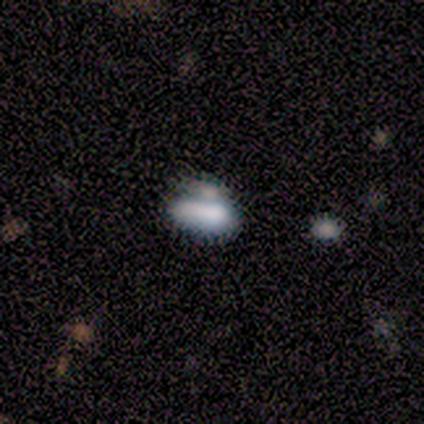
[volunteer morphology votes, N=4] Smooth or featured?
  - smooth: 50% * (tied)
  - star or artifact: 50% * (tied)
  - featured or disk: 0%
How rounded?
  - in between: 100% *
  - round: 0%
  - cigar-shaped: 0%
Merging?
  - minor disturbance: 50% * (tied)
  - merger: 50% * (tied)
  - none: 0%
  - major disturbance: 0%